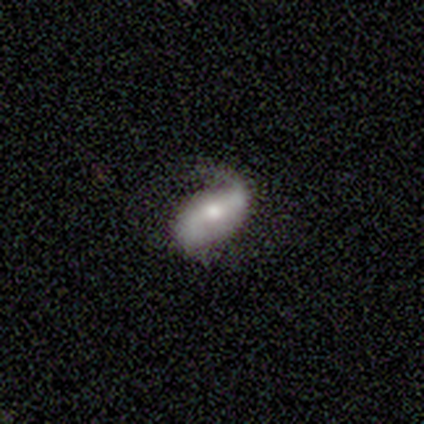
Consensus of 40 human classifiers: A featured or disk galaxy (62%) with a weak bar (39%), 2 (87%) loose (52%) spiral arms (100%) and a moderate central bulge (70%). Merging: none (38%).